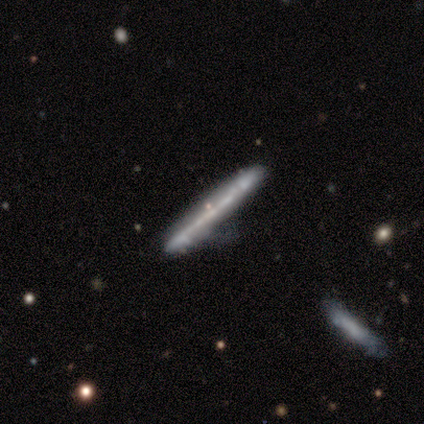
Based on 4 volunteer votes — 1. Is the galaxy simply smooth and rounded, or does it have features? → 75% featured or disk, 25% star or artifact, 0% smooth.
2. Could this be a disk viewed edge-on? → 100% yes, 0% no.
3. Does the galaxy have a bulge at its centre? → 67% none, 33% rounded, 0% boxy.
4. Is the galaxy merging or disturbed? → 67% none, 33% minor disturbance, 0% major disturbance, 0% merger.